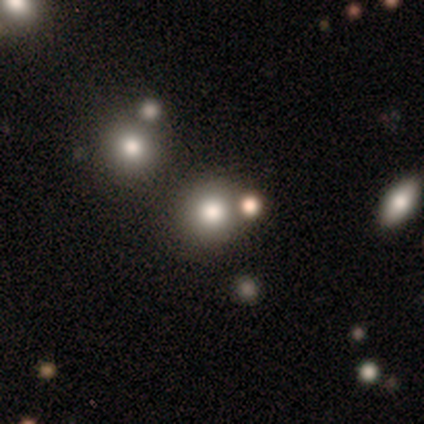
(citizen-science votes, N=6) This appears to be a smooth galaxy with no disk features (83%) that is round (100%). Merging: none (100%).